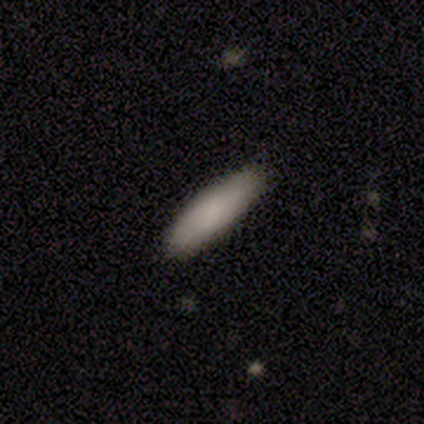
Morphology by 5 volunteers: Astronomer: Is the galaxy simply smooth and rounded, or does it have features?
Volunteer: smooth — 100%.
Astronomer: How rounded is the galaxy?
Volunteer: cigar-shaped — 60% (runner-up: in between, 40%).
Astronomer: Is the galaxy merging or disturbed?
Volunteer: none — 100%.